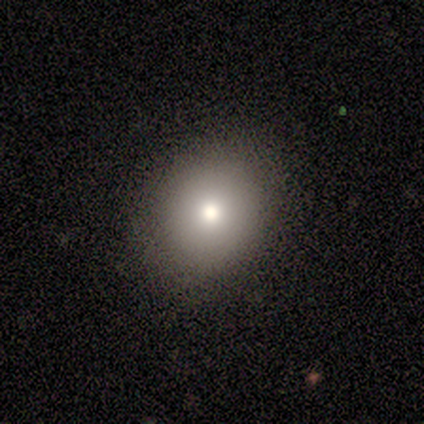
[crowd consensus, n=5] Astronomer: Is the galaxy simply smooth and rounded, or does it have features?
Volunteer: smooth — 80%.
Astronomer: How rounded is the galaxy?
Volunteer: round — 100%.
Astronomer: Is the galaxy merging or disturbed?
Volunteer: none — 100%.